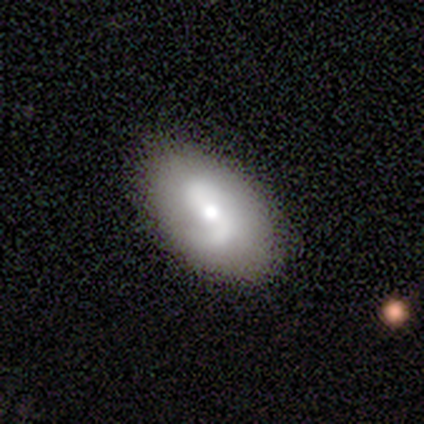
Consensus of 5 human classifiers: A featured or disk galaxy (80%) with a weak bar (50%), 2 (100%) tight (67%) spiral arms (75%) and a moderate central bulge (75%).

Vote fractions:
- Smooth or featured? featured or disk: 80% / smooth: 20% / star or artifact: 0%
- Edge-on disk? no: 100% / yes: 0%
- Bar? weak: 50% / strong: 25% / no: 25%
- Spiral arms? yes: 75% / no: 25%
- Spiral winding? tight: 67% / medium: 33% / loose: 0%
- Spiral arm count? 2: 100% / 1: 0% / 3: 0% / 4: 0% / more than 4: 0% / can't tell: 0%
- Bulge size? moderate: 75% / small: 25% / dominant: 0% / large: 0% / none: 0%
- Merging? minor disturbance: 60% / none: 40% / major disturbance: 0% / merger: 0%